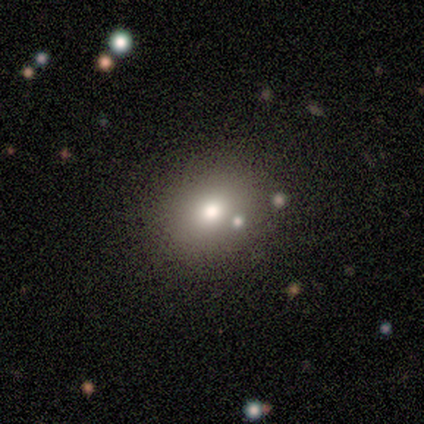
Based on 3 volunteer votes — Volunteers were most divided on "how rounded" (2-way tie): round: 50%, in between: 50%, cigar-shaped: 0%. More confident: merging — none (100%); smooth or featured — smooth (67%).